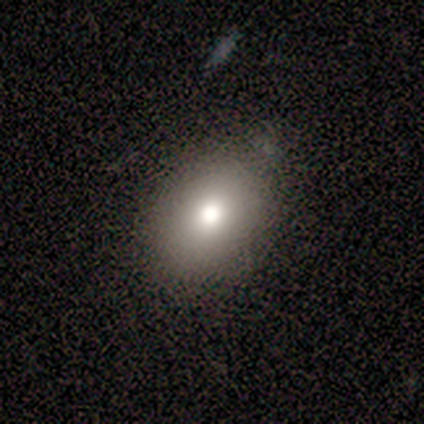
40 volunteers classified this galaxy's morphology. Volunteers were most divided on "how rounded": in between: 59%, round: 41%, cigar-shaped: 0%. More confident: merging — none (82%); smooth or featured — smooth (72%).